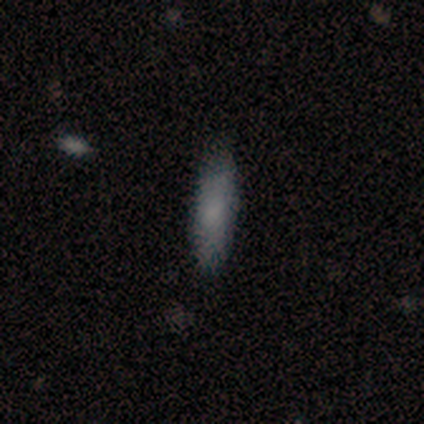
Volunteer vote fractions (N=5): smooth_or_featured: smooth (p=0.60) [alt: featured or disk p=0.40]
how_rounded: in between (p=0.67) [alt: cigar-shaped p=0.33]
merging: none (p=0.80) [alt: major disturbance p=0.20]